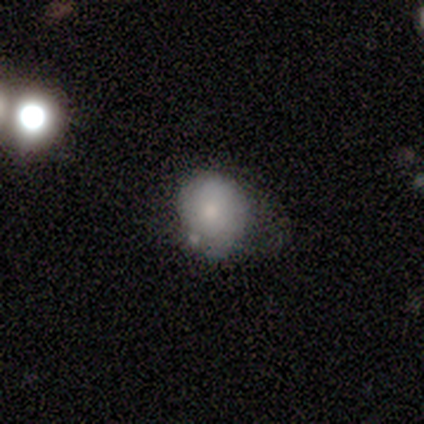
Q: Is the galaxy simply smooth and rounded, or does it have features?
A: smooth — 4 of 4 (100%).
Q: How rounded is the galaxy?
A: round — 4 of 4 (100%).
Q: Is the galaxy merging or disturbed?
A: none — 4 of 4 (100%).